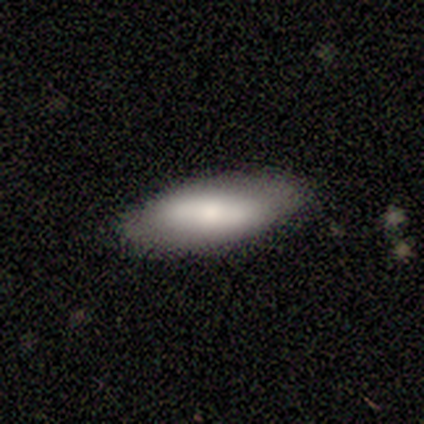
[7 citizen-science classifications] Smooth or featured? smooth (71%)
How rounded? in between (80%)
Merging? none (100%)